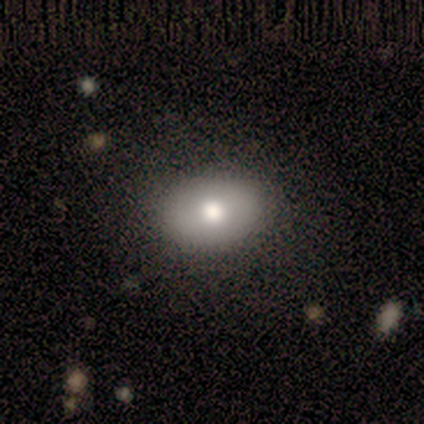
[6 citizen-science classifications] A smooth galaxy with no disk features (50%) that is in between round and cigar-shaped (67%).

Vote fractions:
- Smooth or featured? smooth: 50% / star or artifact: 33% / featured or disk: 17%
- How rounded? in between: 67% / round: 33% / cigar-shaped: 0%
- Merging? none: 100% / minor disturbance: 0% / major disturbance: 0% / merger: 0%